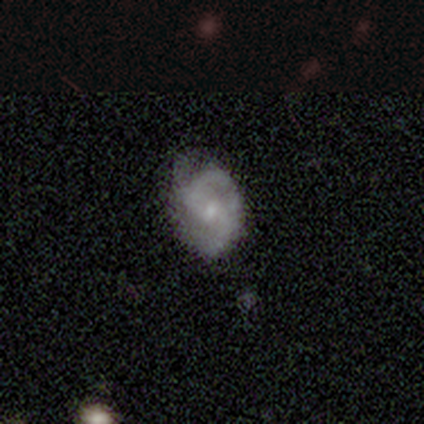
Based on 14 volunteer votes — Smooth or featured: featured or disk — 86% (smooth — 14%)
Edge-on disk: no — 100%
Bar: strong — 33% (tied with weak — 33%; no — 33%)
Spiral arms: yes — 92% (no — 8%)
Spiral winding: medium — 73% (tight — 18%)
Spiral arm count: 2 — 91% (can't tell — 9%)
Bulge size: small — 75% (moderate — 17%)
Merging: none — 86% (minor disturbance — 14%)